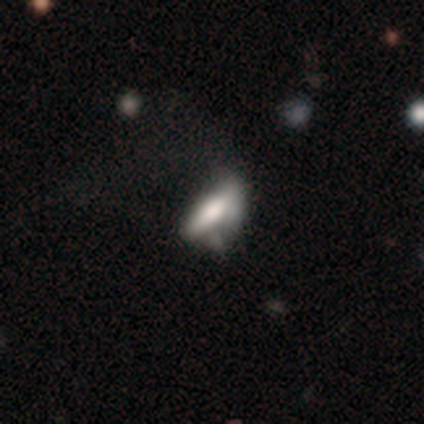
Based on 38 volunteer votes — Smooth or featured? 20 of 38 (53%) said smooth. How rounded? 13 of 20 (65%) said in between. Merging? 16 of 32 (50%) said major disturbance.